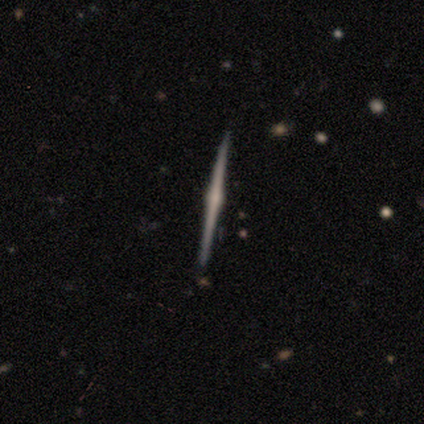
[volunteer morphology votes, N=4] type=smooth (50%, tied with featured or disk); roundness=cigar-shaped (100%); merging=none (100%).